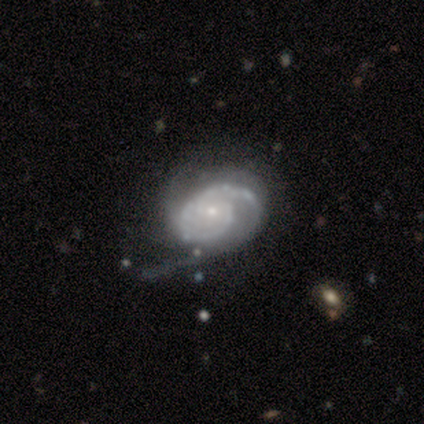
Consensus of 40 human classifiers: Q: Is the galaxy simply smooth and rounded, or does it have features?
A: featured or disk — 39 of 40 (98%).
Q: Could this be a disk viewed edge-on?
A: no — 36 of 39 (92%).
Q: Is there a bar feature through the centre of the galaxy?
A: no — 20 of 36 (56%).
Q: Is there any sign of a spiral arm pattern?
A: yes — 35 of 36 (97%).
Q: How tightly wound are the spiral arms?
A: tight — 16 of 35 (46%, tied with medium).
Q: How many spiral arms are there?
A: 2 — 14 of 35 (40%).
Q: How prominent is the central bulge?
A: small — 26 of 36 (72%).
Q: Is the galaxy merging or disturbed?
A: none — 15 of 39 (38%, tied with minor disturbance).